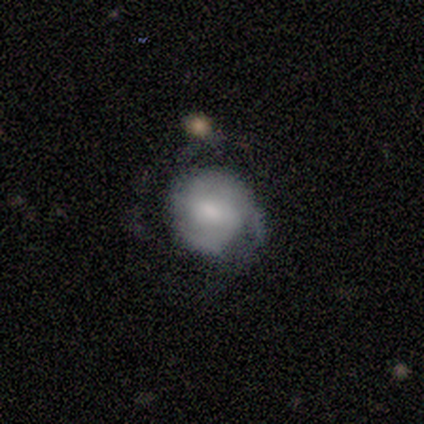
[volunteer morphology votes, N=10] Volunteers were most divided on "merging": none: 50%, minor disturbance: 40%, major disturbance: 10%, merger: 0%. More confident: how rounded — round (83%); smooth or featured — smooth (60%).